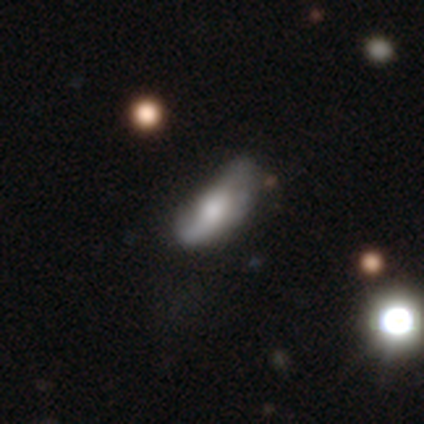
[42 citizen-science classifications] A featured or disk galaxy (62%) with no bar (63%), 2 (58%) tight (33%, tied with medium and loose) spiral arms (63%) and a moderate central bulge (53%).

Vote fractions:
- Smooth or featured? featured or disk: 62% / smooth: 38% / star or artifact: 0%
- Edge-on disk? no: 73% / yes: 27%
- Bar? no: 63% / weak: 21% / strong: 16%
- Spiral arms? yes: 63% / no: 37%
- Spiral winding? tight: 33% (tied) / medium: 33% (tied) / loose: 33% (tied)
- Spiral arm count? 2: 58% / can't tell: 25% / 1: 17% / 3: 0% / 4: 0% / more than 4: 0%
- Bulge size? moderate: 53% / large: 32% / dominant: 11% / none: 5% / small: 0%
- Merging? none: 48% / minor disturbance: 38% / major disturbance: 14% / merger: 0%